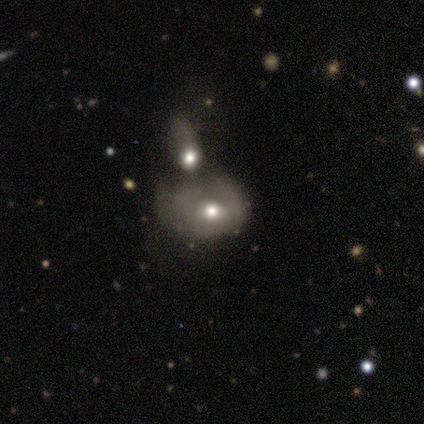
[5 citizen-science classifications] Volunteers were most divided on "merging" (2-way tie): none: 40%, merger: 40%, minor disturbance: 20%, major disturbance: 0%. More confident: how rounded — in between (67%); smooth or featured — smooth (60%).